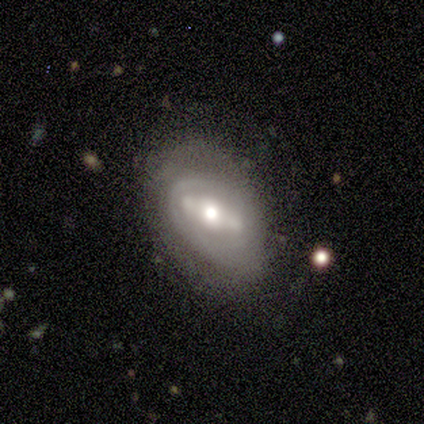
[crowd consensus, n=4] featured or disk 75%, smooth 25%, star or artifact 0%. Down the decision tree: edge-on disk — no (100%); bar — strong (67%); spiral arms — no (67%); bulge size — moderate (67%); merging — none (75%).